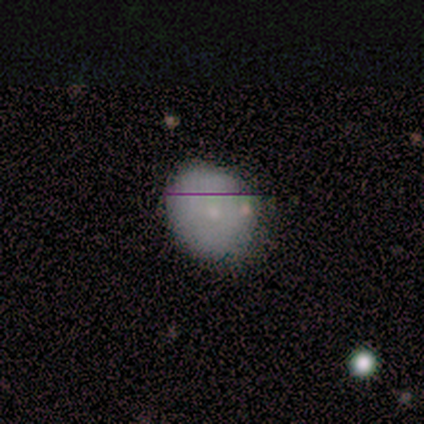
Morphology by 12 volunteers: Overall: smooth (75%). How rounded: round (78%). Merging: none (80%).